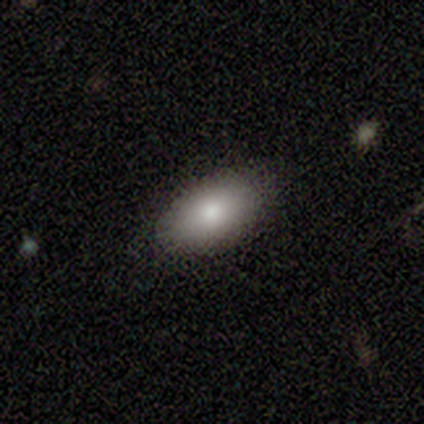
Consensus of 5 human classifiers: Smooth or featured? 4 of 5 (80%) said smooth. How rounded? 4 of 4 (100%) said in between. Merging? 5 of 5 (100%) said none.